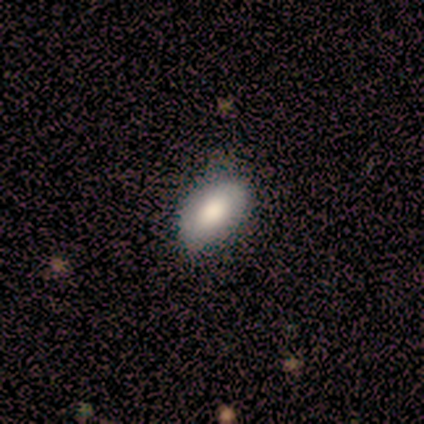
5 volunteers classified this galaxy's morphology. This appears to be a smooth galaxy with no disk features (80%) that is in between round and cigar-shaped (100%). Merging: none (60%).